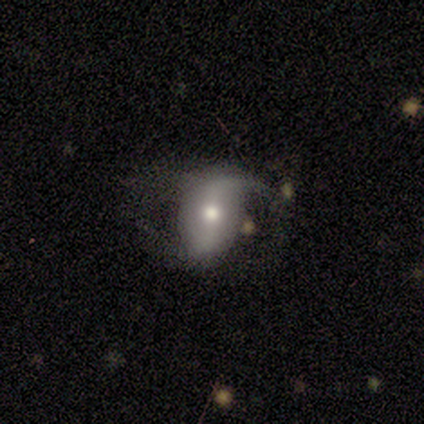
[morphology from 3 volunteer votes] smooth_or_featured: smooth (p=0.67) [alt: featured or disk p=0.33]
how_rounded: round (p=0.50) [tied with: in between p=0.50]
merging: major disturbance (p=0.67) [alt: minor disturbance p=0.33]